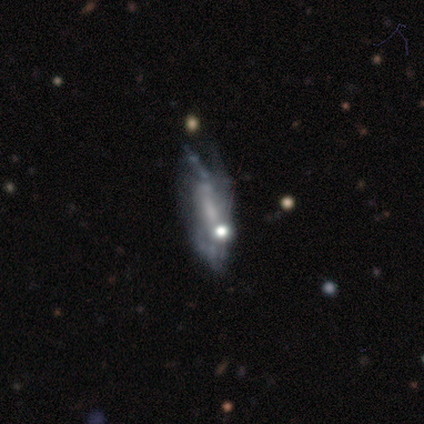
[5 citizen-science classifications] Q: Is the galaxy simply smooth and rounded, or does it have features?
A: featured or disk — 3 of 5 (60%).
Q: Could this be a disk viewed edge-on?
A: no — 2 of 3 (67%).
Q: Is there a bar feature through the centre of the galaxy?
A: strong — 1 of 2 (50%, tied with no).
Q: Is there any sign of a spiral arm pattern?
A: yes — 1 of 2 (50%, tied with no).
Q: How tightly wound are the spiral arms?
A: loose — 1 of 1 (100%).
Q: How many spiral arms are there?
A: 2 — 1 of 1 (100%).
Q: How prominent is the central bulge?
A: moderate — 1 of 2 (50%, tied with none).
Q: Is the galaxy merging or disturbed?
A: major disturbance — 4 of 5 (80%).